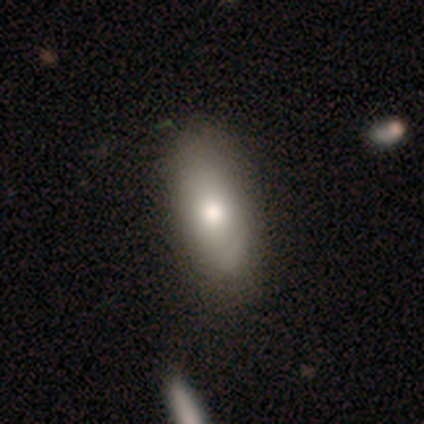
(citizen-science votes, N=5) A smooth galaxy with no disk features (60%) that is in between round and cigar-shaped (100%).

Vote fractions:
- Smooth or featured? smooth: 60% / featured or disk: 40% / star or artifact: 0%
- How rounded? in between: 100% / round: 0% / cigar-shaped: 0%
- Merging? none: 80% / minor disturbance: 20% / major disturbance: 0% / merger: 0%